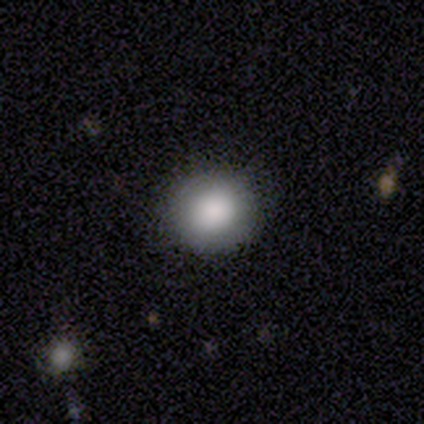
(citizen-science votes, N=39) Volunteers were most divided on "smooth or featured": smooth: 82%, featured or disk: 10%, star or artifact: 8%. More confident: how rounded — round (94%); merging — none (86%).